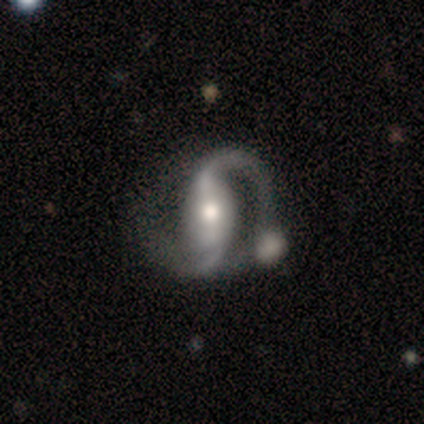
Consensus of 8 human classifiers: featured or disk 75%, smooth 25%, star or artifact 0%. Down the decision tree: edge-on disk — no (100%); bar — strong (67%); spiral arms — yes (100%); spiral arm count — 2 (100%); spiral winding — loose (100%); bulge size — moderate (50%); merging — none (50%).